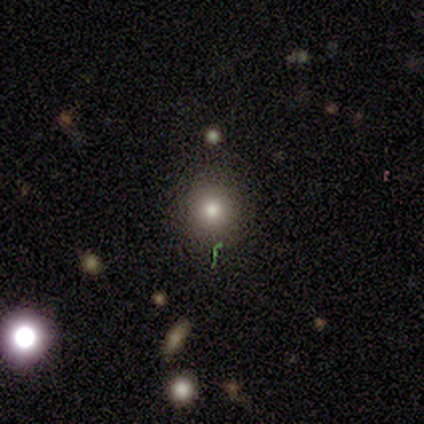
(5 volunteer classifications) This appears to be a smooth galaxy with no disk features (100%) that is round (100%). Merging: none (100%).